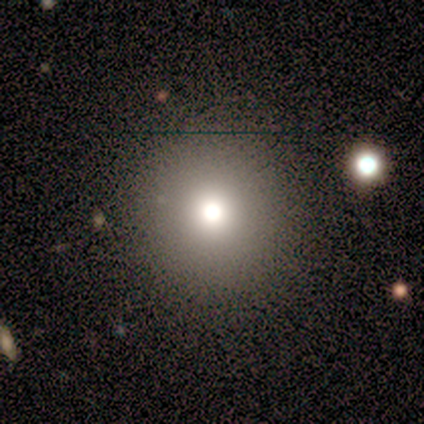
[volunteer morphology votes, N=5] Volunteers were most divided on "how rounded": round: 67%, in between: 33%, cigar-shaped: 0%. More confident: merging — none (100%); smooth or featured — smooth (60%).